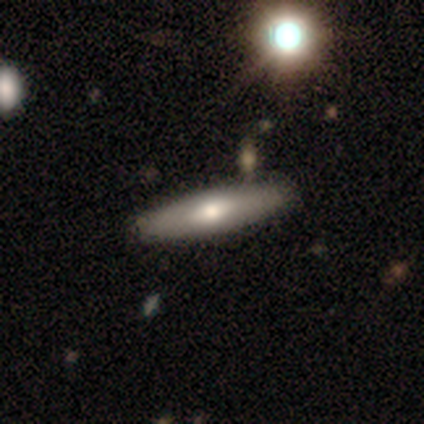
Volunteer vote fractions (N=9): Smooth or featured?
  - smooth: 56% *
  - featured or disk: 33%
  - star or artifact: 11%
How rounded?
  - in between: 60% *
  - cigar-shaped: 40%
  - round: 0%
Merging?
  - none: 88% *
  - major disturbance: 12%
  - minor disturbance: 0%
  - merger: 0%